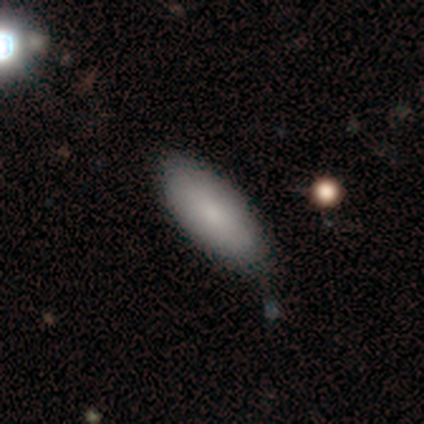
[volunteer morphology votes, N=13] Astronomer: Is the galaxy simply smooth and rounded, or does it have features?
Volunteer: smooth — 85%.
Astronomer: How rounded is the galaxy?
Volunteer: in between — 91%.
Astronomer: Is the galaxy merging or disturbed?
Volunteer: none — 75%.